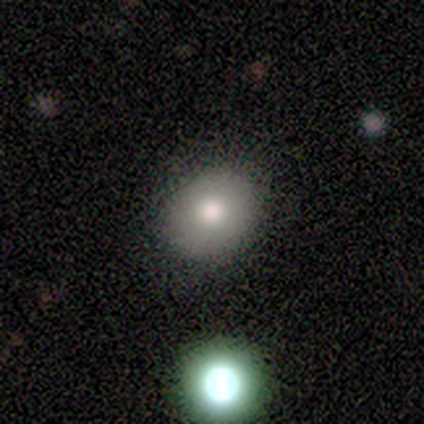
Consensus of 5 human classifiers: A smooth galaxy with no disk features (60%) that is in between round and cigar-shaped (100%).

Vote fractions:
- Smooth or featured? smooth: 60% / featured or disk: 20% / star or artifact: 20%
- How rounded? in between: 100% / round: 0% / cigar-shaped: 0%
- Merging? none: 100% / minor disturbance: 0% / major disturbance: 0% / merger: 0%